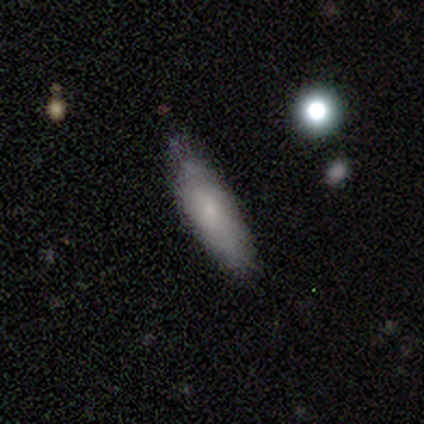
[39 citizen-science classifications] Smooth or featured?
  - smooth: 79% *
  - featured or disk: 21%
  - star or artifact: 0%
How rounded?
  - cigar-shaped: 55% *
  - in between: 45%
  - round: 0%
Merging?
  - none: 67% *
  - minor disturbance: 10%
  - major disturbance: 0%
  - merger: 0%